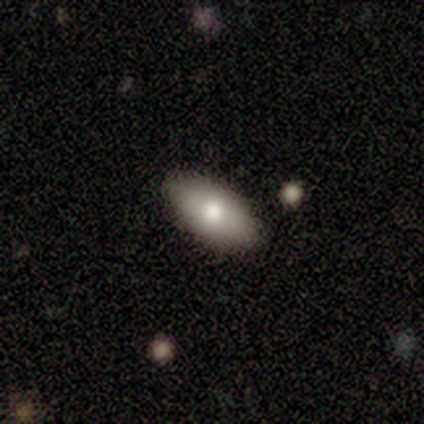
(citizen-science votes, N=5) Smooth or featured: smooth — 100%
How rounded: in between — 80% (cigar-shaped — 20%)
Merging: none — 100%